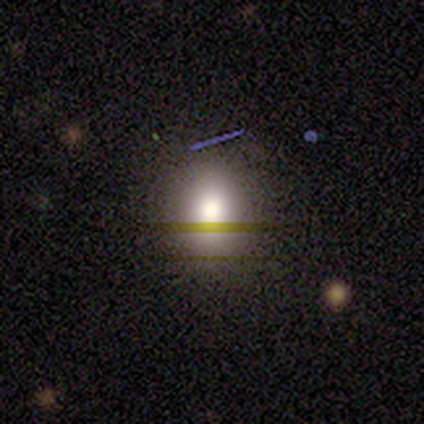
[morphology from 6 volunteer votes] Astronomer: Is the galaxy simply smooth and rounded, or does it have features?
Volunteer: smooth — 67%.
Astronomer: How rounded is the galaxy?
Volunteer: round — 50%, tied with in between at 50%.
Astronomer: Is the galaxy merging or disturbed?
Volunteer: none — 100%.